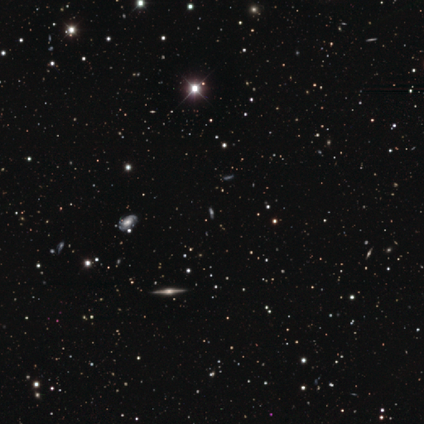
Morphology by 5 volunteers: Smooth or featured? 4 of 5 (80%) said star or artifact.